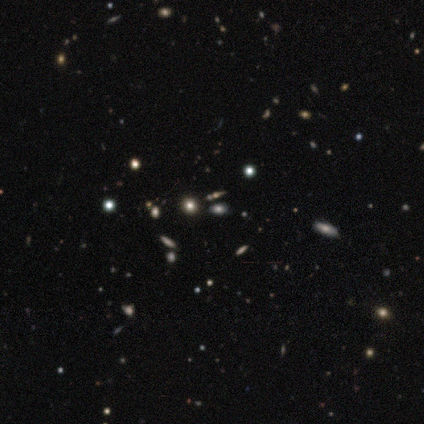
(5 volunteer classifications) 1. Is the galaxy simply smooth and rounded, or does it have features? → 100% star or artifact, 0% smooth, 0% featured or disk.